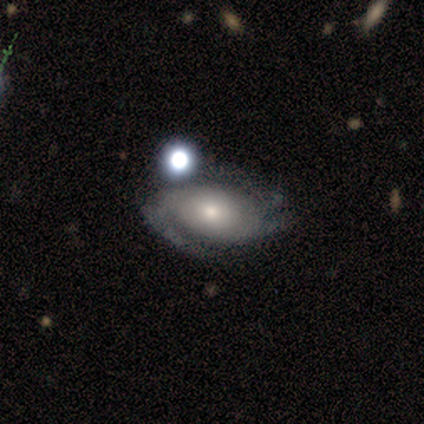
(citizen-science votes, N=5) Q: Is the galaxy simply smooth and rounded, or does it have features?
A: featured or disk — 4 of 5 (80%).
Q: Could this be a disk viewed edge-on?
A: no — 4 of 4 (100%).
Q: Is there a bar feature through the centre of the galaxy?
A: no — 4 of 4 (100%).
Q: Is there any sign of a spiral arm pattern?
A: yes — 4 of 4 (100%).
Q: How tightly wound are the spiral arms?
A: tight — 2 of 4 (50%).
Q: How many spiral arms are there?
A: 1 — 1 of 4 (25%, tied with 2, 3 and can't tell).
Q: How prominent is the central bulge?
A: small — 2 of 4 (50%).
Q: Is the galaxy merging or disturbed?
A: none — 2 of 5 (40%, tied with minor disturbance).